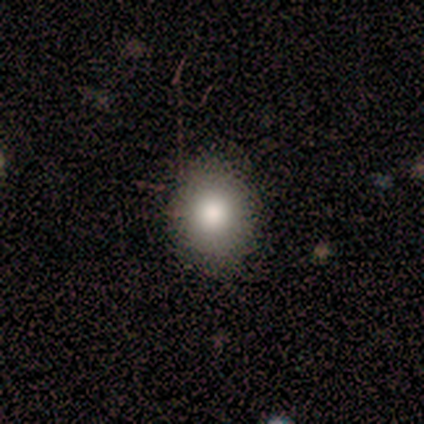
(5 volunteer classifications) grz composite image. It shows a smooth galaxy with no disk features (80%) that is round (75%). Merging: none (100%).